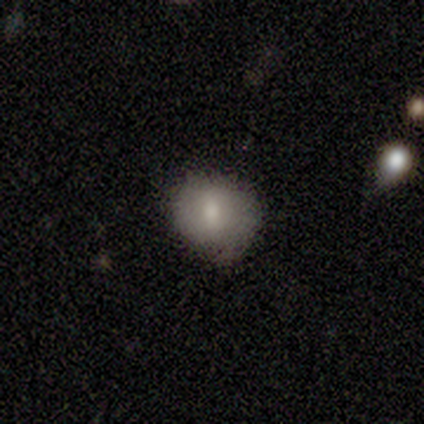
Overall: smooth (100%). How rounded: round (75%). Merging: none (50%, tied with minor disturbance).